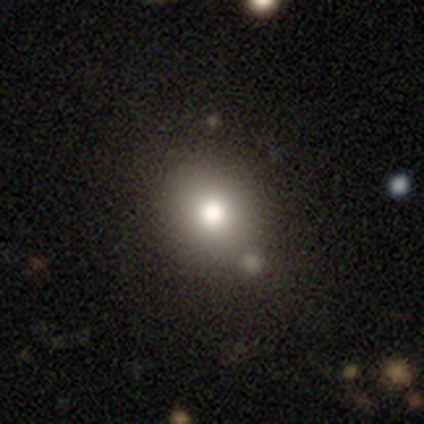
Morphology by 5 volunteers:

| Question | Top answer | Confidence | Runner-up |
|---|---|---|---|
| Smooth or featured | smooth | 60% | star or artifact (40%) |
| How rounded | round | 67% | in between (33%) |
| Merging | none | 67% | minor disturbance (33%) |